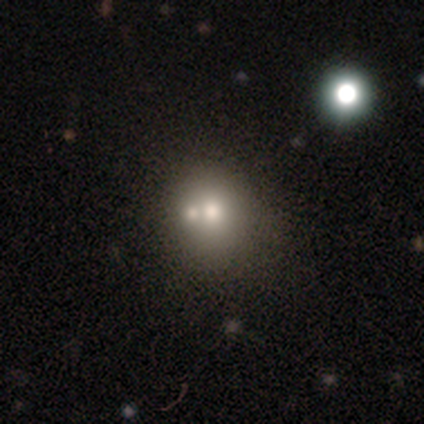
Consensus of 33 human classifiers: A smooth galaxy with no disk features (61%) that is round (75%).

Vote fractions:
- Smooth or featured? smooth: 61% / featured or disk: 30% / star or artifact: 9%
- How rounded? round: 75% / in between: 25% / cigar-shaped: 0%
- Merging? merger: 50% / none: 0% / minor disturbance: 0% / major disturbance: 0%